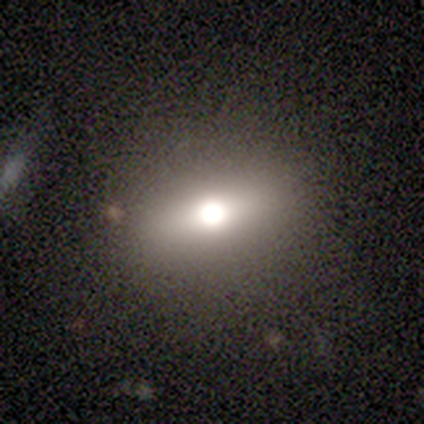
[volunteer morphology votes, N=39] type=smooth (56%); roundness=in between (59%); merging=none (56%).